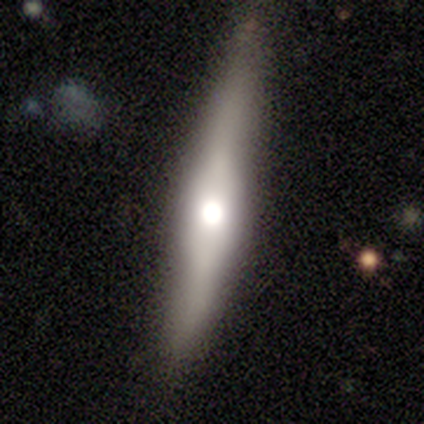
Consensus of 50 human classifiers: smooth-or-featured: featured or disk: 70% | smooth: 22% | star or artifact: 8%
  disk-edge-on: yes: 94% | no: 6%
    edge-on-bulge: rounded: 85% | boxy: 12% | none: 3%
  merging: none: 83% | minor disturbance: 13% | major disturbance: 4% | merger: 0%